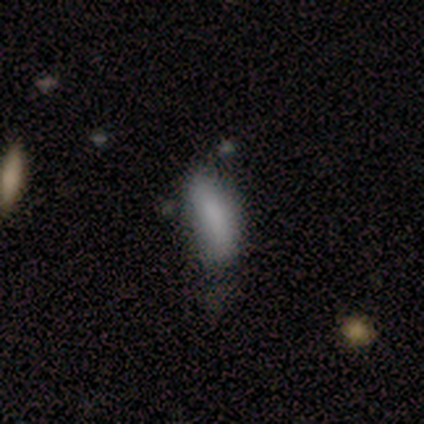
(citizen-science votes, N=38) Volunteers were most divided on "how rounded": in between: 60%, cigar-shaped: 40%, round: 0%. More confident: smooth or featured — smooth (79%); merging — none (58%).